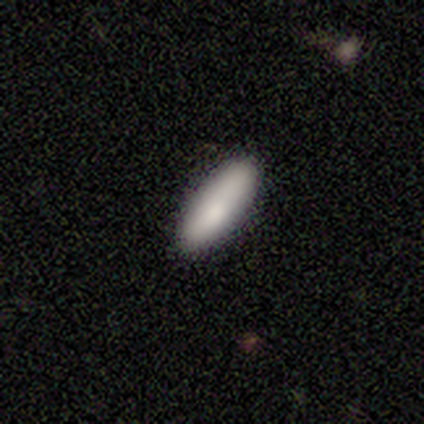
Volunteers were most divided on "how rounded": cigar-shaped: 75%, in between: 25%, round: 0%. More confident: smooth or featured — smooth (100%); merging — none (100%).